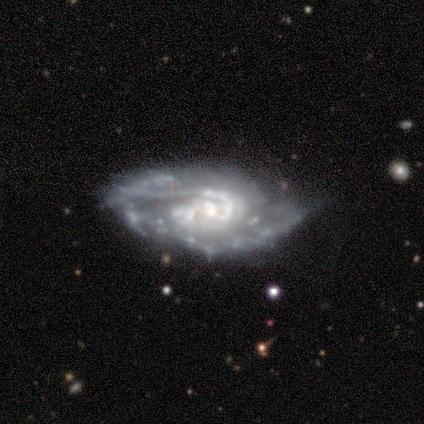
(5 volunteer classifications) smooth_or_featured: featured or disk (p=1.00)
disk_edge_on: no (p=1.00)
bar: no (p=0.60) [alt: strong p=0.20]
has_spiral_arms: yes (p=0.60) [alt: no p=0.40]
spiral_winding: tight (p=0.67) [alt: medium p=0.33]
spiral_arm_count: 2 (p=1.00)
bulge_size: small (p=0.60) [alt: large p=0.20]
merging: minor disturbance (p=0.60) [alt: none p=0.40]